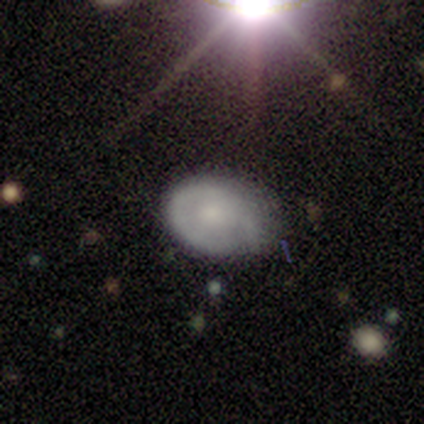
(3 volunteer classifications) featured or disk 67%, smooth 33%, star or artifact 0%. Down the decision tree: edge-on disk — no (100%); bar — no (100%); spiral arms — no (100%); bulge size — moderate (50%, tied with small); merging — none (67%).